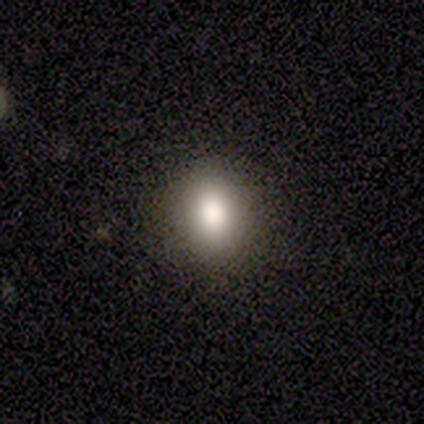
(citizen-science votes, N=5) smooth 100%, featured or disk 0%, star or artifact 0%. Down the decision tree: how rounded — in between (100%); merging — none (100%).